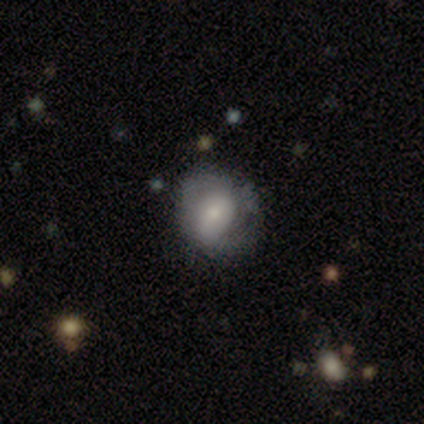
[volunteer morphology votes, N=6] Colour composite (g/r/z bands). It shows a smooth galaxy with no disk features (67%) that is in between round and cigar-shaped (75%). Merging: none (50%, tied with major disturbance).